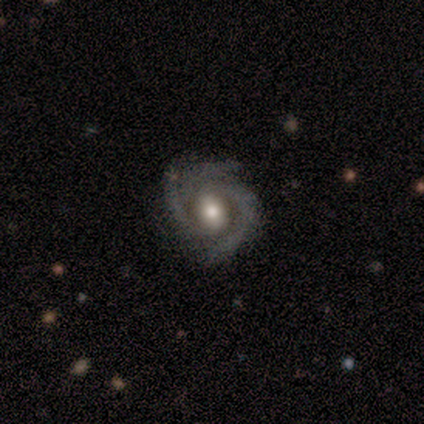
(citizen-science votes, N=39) This appears to be a featured or disk galaxy (92%) with no bar (51%), 3 (62%) tight (56%) spiral arms (97%) and a moderate central bulge (74%). Merging: none (68%).